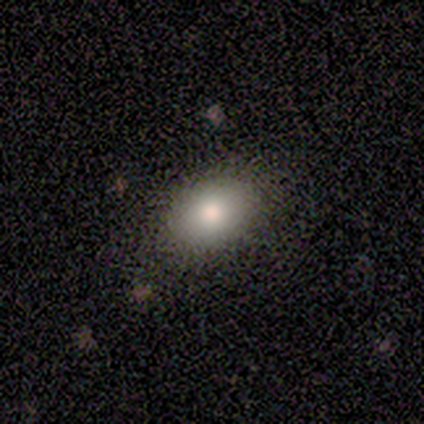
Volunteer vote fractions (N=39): Smooth or featured?
  - smooth: 85% *
  - featured or disk: 10%
  - star or artifact: 5%
How rounded?
  - in between: 82% *
  - round: 18%
  - cigar-shaped: 0%
Merging?
  - none: 57% *
  - minor disturbance: 8%
  - major disturbance: 3%
  - merger: 0%